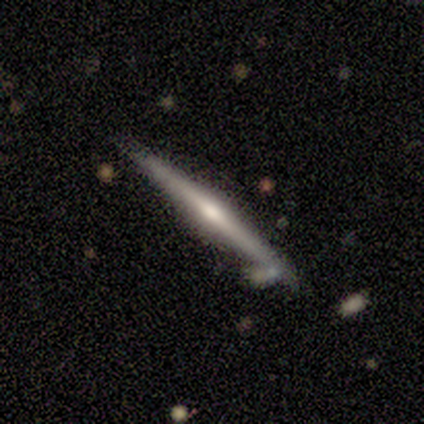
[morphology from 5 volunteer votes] type=featured or disk (80%); edge-on=yes (100%); edge-on bulge=rounded (100%); merging=none (100%).